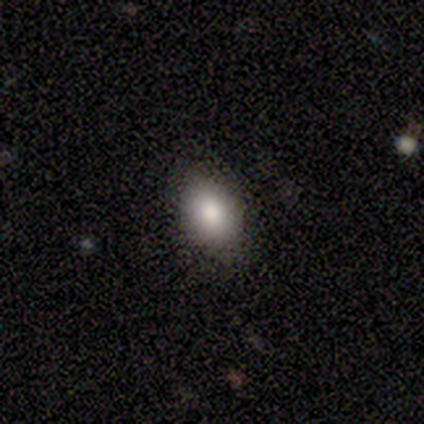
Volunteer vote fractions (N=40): A smooth galaxy with no disk features (92%) that is in between round and cigar-shaped (70%). Merging: none (82%).